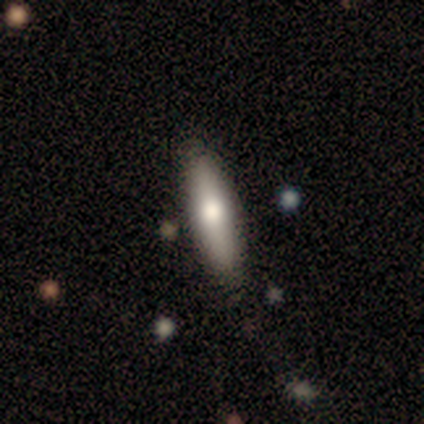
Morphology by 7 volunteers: smooth_or_featured: smooth (p=0.86) [alt: featured or disk p=0.14]
how_rounded: in between (p=0.50) [tied with: cigar-shaped p=0.50]
merging: none (p=0.86) [alt: major disturbance p=0.14]